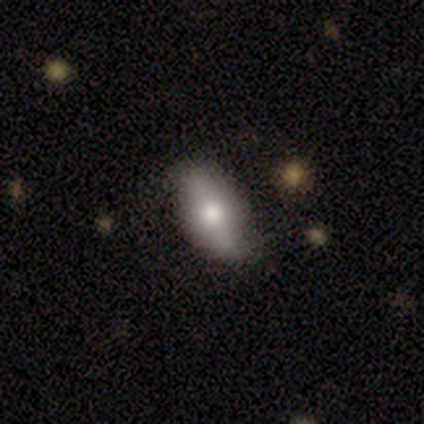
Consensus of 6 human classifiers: A smooth galaxy with no disk features (83%) that is in between round and cigar-shaped (100%). Merging: none (67%).